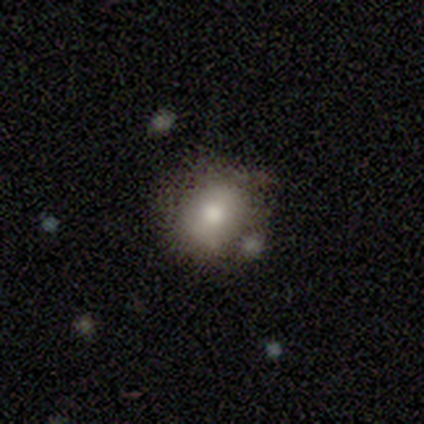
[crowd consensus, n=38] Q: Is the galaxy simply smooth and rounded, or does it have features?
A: smooth — 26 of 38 (68%).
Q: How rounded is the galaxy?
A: round — 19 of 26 (73%).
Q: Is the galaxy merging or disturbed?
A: none — 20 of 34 (59%).